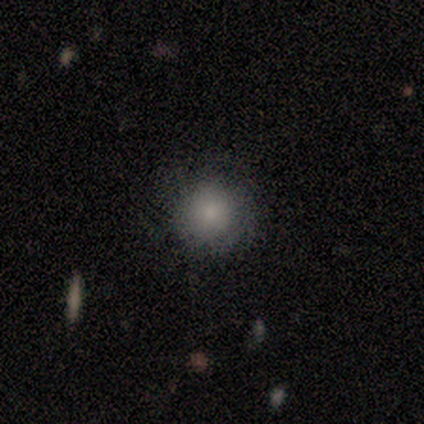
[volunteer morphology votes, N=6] Overall: smooth (100%). How rounded: round (83%). Merging: none (50%; major disturbance 33%).